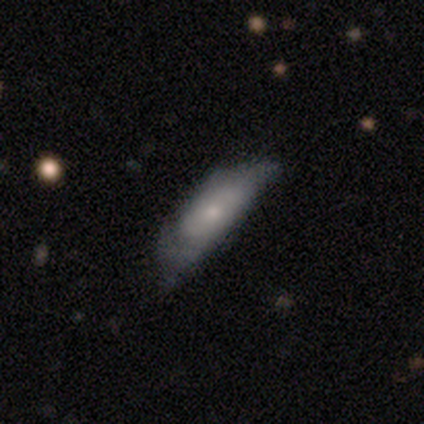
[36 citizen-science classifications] This is likely a smooth galaxy (61%). How rounded: likely cigar-shaped (64%). Merging: marginally minor disturbance (42%).